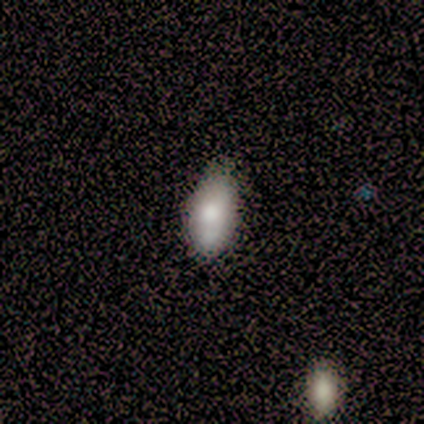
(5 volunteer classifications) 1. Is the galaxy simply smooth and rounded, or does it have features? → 60% featured or disk, 40% smooth, 0% star or artifact.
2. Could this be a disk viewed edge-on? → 67% no, 33% yes.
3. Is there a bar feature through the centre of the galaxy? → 100% no, 0% strong, 0% weak.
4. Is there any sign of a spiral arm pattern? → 100% no, 0% yes.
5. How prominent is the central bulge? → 50% large (tied), 50% moderate (tied), 0% dominant, 0% small, 0% none.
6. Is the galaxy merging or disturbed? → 80% none, 20% minor disturbance, 0% major disturbance, 0% merger.